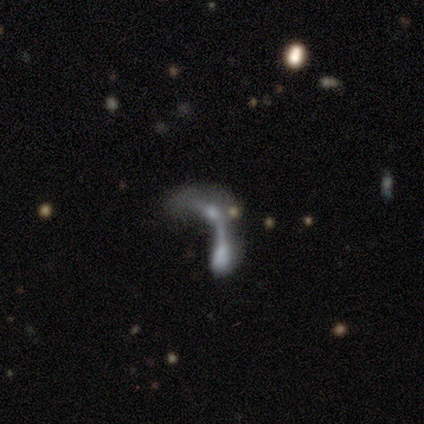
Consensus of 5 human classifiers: Morphology: type=featured or disk (60%); edge-on=no (100%); bar=no (67%); spiral arms=no (67%); bulge=none (100%); merging=merger (60%).